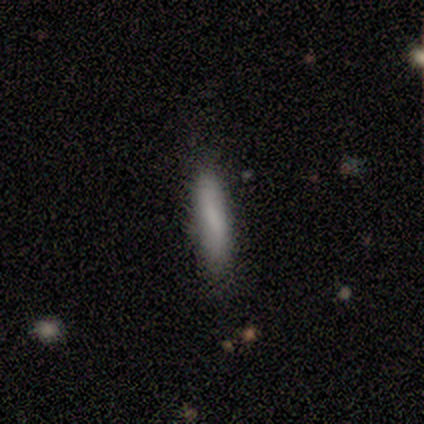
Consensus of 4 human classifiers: Overall: smooth (100%). How rounded: cigar-shaped (100%). Merging: none (75%).